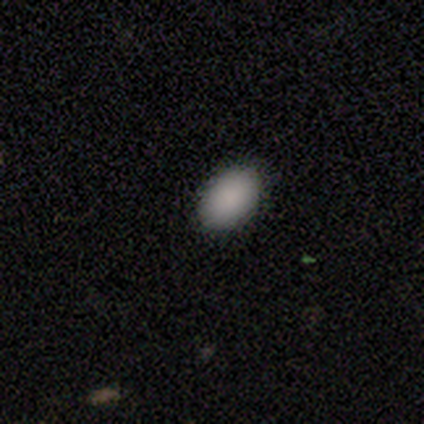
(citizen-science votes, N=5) This is clearly a smooth galaxy (100%). How rounded: clearly in between (80%). Merging: clearly none (80%).